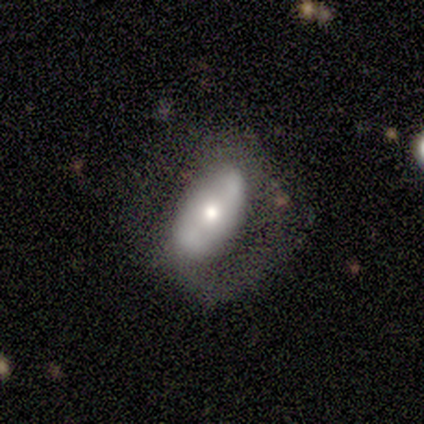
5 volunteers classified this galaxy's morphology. featured or disk 80%, smooth 20%, star or artifact 0%. Down the decision tree: edge-on disk — no (75%); bar — no (67%); spiral arms — no (67%); bulge size — large (33%, tied with moderate and small); merging — major disturbance (60%).